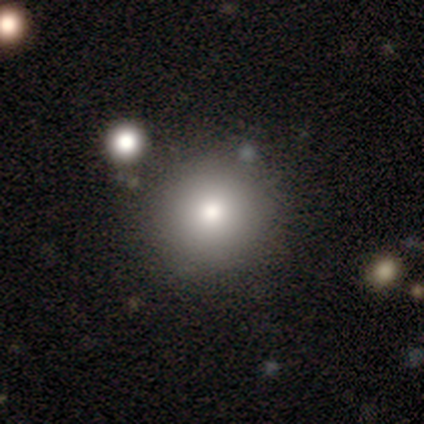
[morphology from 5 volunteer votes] A smooth galaxy with no disk features (80%) that is round (100%). Merging: none (80%).